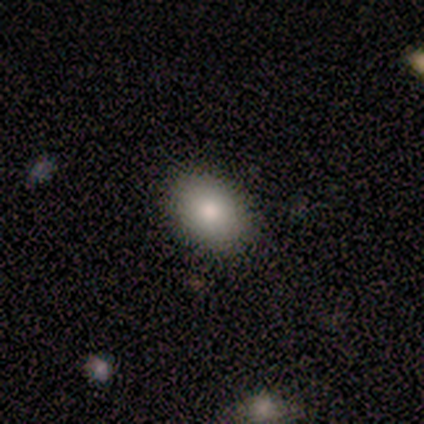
Q: Smooth or featured?
A: smooth (80%); runner-up: featured or disk (20%)
Q: How rounded?
A: in between (75%); runner-up: round (25%)
Q: Merging?
A: none (80%); runner-up: minor disturbance (20%)